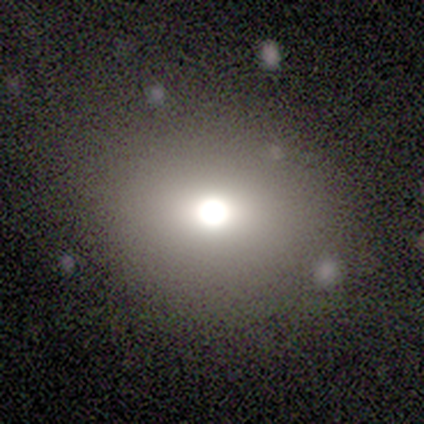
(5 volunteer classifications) smooth 60%, featured or disk 20%, star or artifact 20%. Down the decision tree: how rounded — in between (67%); merging — none (100%).